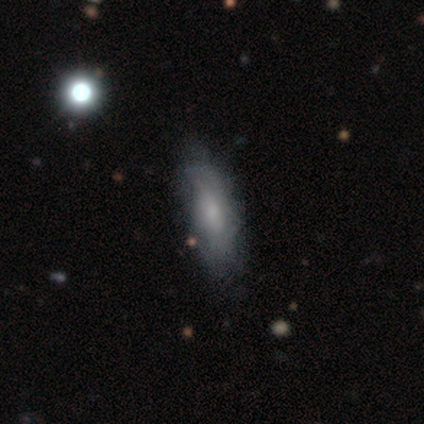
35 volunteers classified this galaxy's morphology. Overall: smooth (54%; featured or disk 43%). How rounded: in between (53%; cigar-shaped 47%). Merging: none (74%).